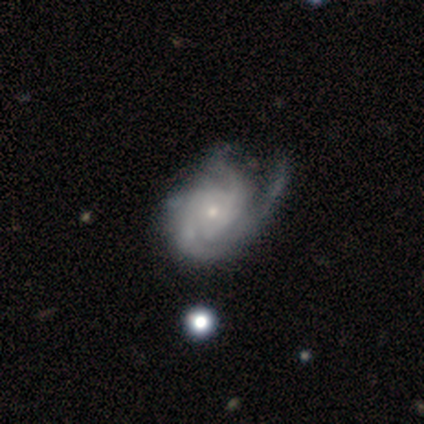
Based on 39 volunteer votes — Volunteers were most divided on "merging": major disturbance: 27%, none: 24%, minor disturbance: 24%, merger: 5%. Remaining: edge-on disk — no (100%); spiral arms — yes (100%); bar — no (84%); smooth or featured — featured or disk (82%); bulge size — small (78%); spiral winding — tight (59%); spiral arm count — 3 (34%).